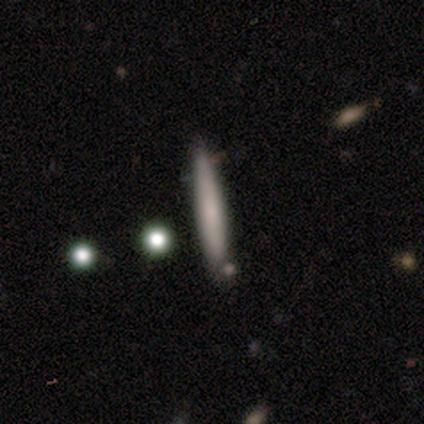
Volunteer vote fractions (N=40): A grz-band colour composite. It shows a smooth galaxy with no disk features (60%) that is cigar-shaped (96%). Merging: none (76%).